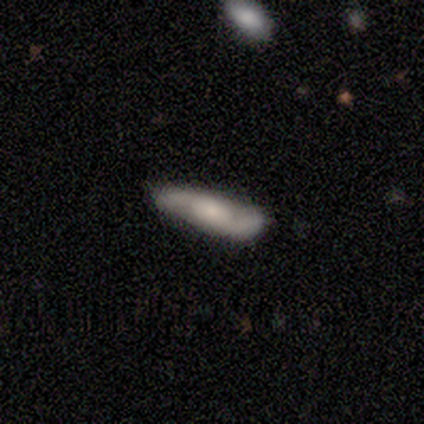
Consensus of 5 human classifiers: This is likely a featured or disk galaxy (60%). It is likely not viewed edge-on (67%). Bar: clearly no (100%). Spiral arm pattern: clearly yes (100%). Spiral arm count: clearly 2 (100%). Spiral winding: possibly medium (50%, tied with loose). Central bulge: possibly moderate (50%, tied with small). Merging: clearly none (80%).